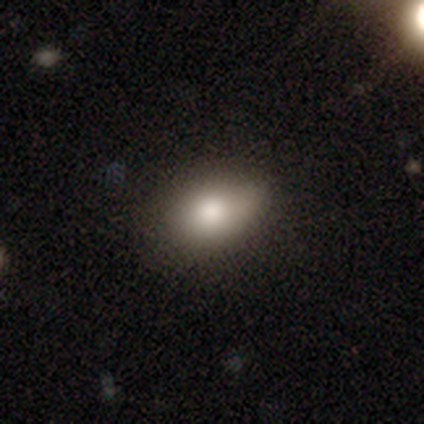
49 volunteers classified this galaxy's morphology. smooth 76%, star or artifact 14%, featured or disk 10%. Down the decision tree: how rounded — in between (84%); merging — none (74%).